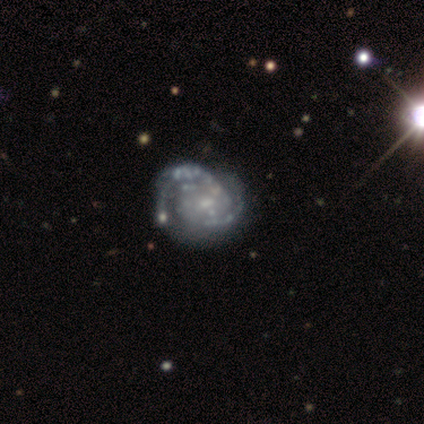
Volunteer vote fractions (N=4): Morphology: type=featured or disk (75%); edge-on=no (100%); bar=no (67%); spiral arms=yes (100%); winding=tight (67%); arm count=2 (67%); bulge=moderate (33%, tied with small and none); merging=minor disturbance (67%).